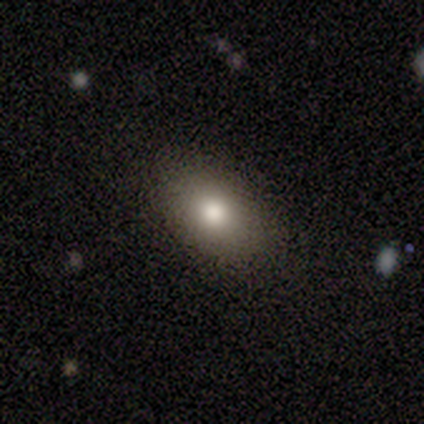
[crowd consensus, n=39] Morphology: type=smooth (79%); roundness=in between (90%); merging=none (81%).